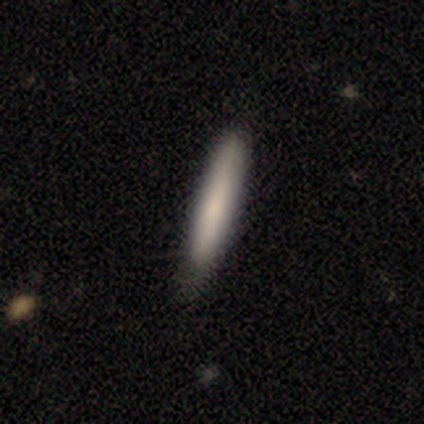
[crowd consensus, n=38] Smooth or featured? 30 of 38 (79%) said smooth. How rounded? 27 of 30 (90%) said cigar-shaped. Merging? 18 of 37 (49%) said none.